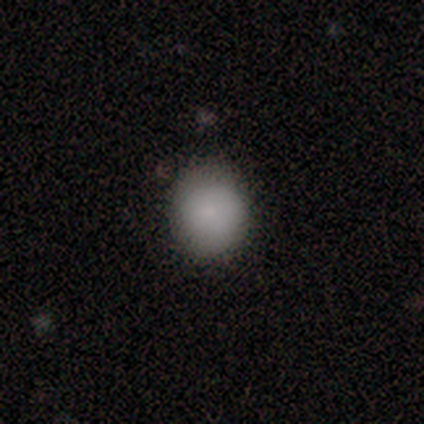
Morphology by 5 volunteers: Smooth or featured: smooth — 100%
How rounded: round — 60% (in between — 40%)
Merging: none — 60% (minor disturbance — 40%)